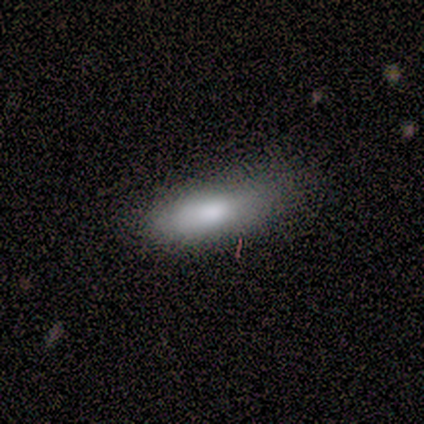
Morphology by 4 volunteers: This appears to be a smooth galaxy with no disk features (75%) that is in between round and cigar-shaped (67%). Merging: none (67%).